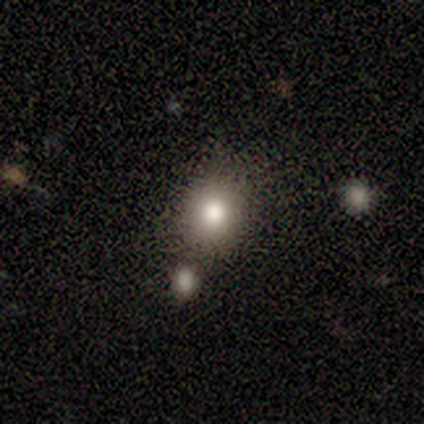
Volunteers were most divided on "merging": none: 50%, major disturbance: 25%, merger: 25%, minor disturbance: 0%. More confident: smooth or featured — smooth (80%); how rounded — round (75%).